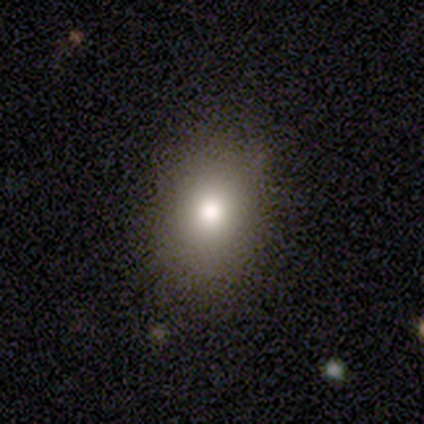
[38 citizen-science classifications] Volunteers were most divided on "how rounded": in between: 59%, round: 41%, cigar-shaped: 0%. More confident: merging — none (100%); smooth or featured — smooth (76%).